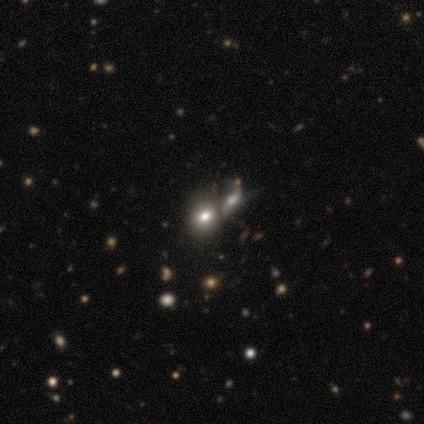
This appears to be a smooth galaxy with no disk features (80%) that is in between round and cigar-shaped (75%). Merging: merger (80%).